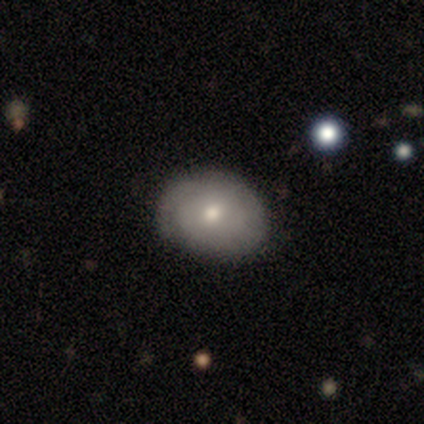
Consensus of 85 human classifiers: This appears to be a smooth galaxy with no disk features (58%) that is in between round and cigar-shaped (61%). Merging: none (80%).